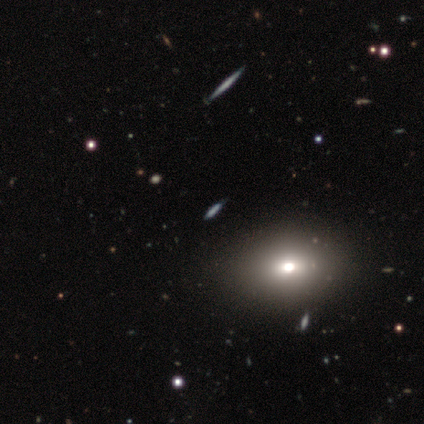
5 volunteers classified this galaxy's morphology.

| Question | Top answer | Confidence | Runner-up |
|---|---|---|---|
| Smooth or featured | smooth | 80% | star or artifact (20%) |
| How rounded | in between | 75% | cigar-shaped (25%) |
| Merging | none | 75% | major disturbance (25%) |